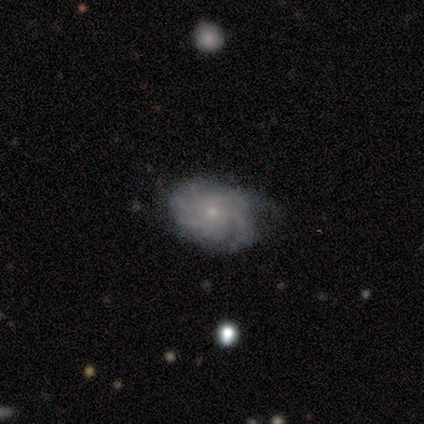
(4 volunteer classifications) Smooth or featured?
  - featured or disk: 100% *
  - smooth: 0%
  - star or artifact: 0%
Edge-on disk?
  - no: 100% *
  - yes: 0%
Bar?
  - no: 100% *
  - strong: 0%
  - weak: 0%
Spiral arms?
  - yes: 100% *
  - no: 0%
Spiral winding?
  - tight: 100% *
  - medium: 0%
  - loose: 0%
Spiral arm count?
  - 3: 75% *
  - can't tell: 25%
  - 1: 0%
  - 2: 0%
  - 4: 0%
  - more than 4: 0%
Bulge size?
  - small: 75% *
  - moderate: 25%
  - dominant: 0%
  - large: 0%
  - none: 0%
Merging?
  - minor disturbance: 75% *
  - none: 25%
  - major disturbance: 0%
  - merger: 0%